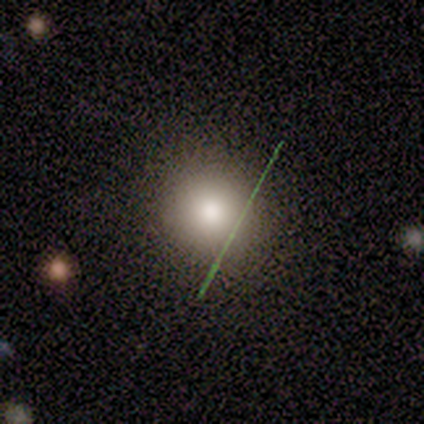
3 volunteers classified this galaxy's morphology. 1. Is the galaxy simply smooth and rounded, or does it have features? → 33% smooth (tied), 33% featured or disk (tied), 33% star or artifact (tied).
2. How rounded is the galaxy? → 100% round, 0% in between, 0% cigar-shaped.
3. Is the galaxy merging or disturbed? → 100% none, 0% minor disturbance, 0% major disturbance, 0% merger.